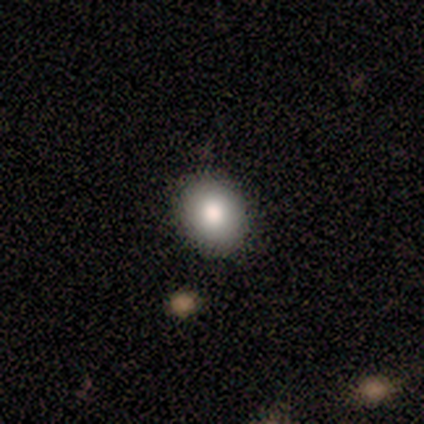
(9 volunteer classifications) smooth_or_featured: smooth (p=1.00)
how_rounded: round (p=0.56) [alt: in between p=0.44]
merging: none (p=1.00)